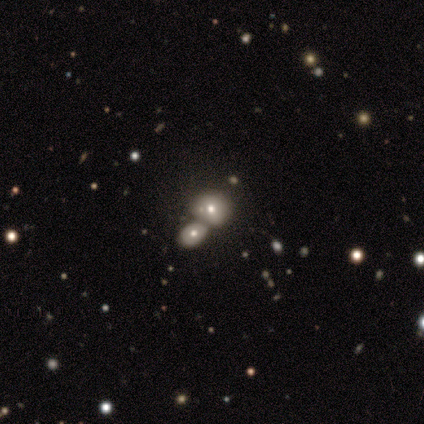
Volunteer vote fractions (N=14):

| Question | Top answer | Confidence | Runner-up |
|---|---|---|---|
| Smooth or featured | smooth | 86% | featured or disk (14%) |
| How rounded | round | 67% | in between (33%) |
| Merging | merger | 57% | minor disturbance (29%) |